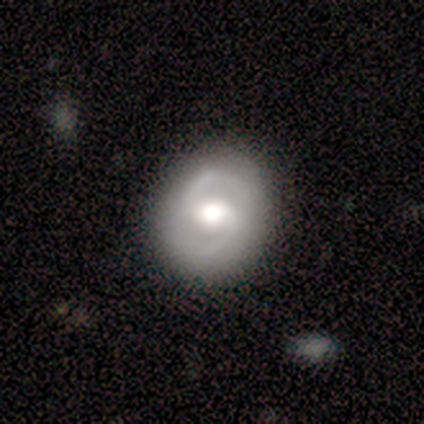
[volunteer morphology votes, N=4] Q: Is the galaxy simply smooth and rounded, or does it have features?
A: smooth — 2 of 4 (50%, tied with featured or disk).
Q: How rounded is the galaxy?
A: round — 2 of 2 (100%).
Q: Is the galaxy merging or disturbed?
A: none — 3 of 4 (75%).